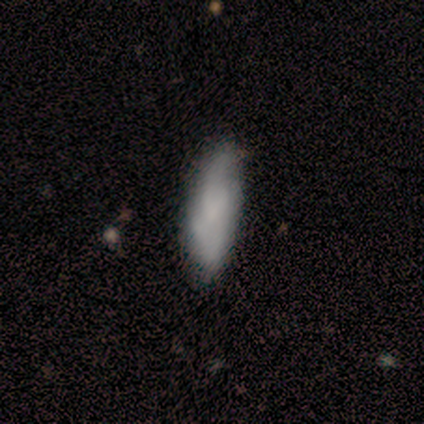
This is likely a smooth galaxy (60%). How rounded: clearly in between (100%). Merging: possibly none (50%).